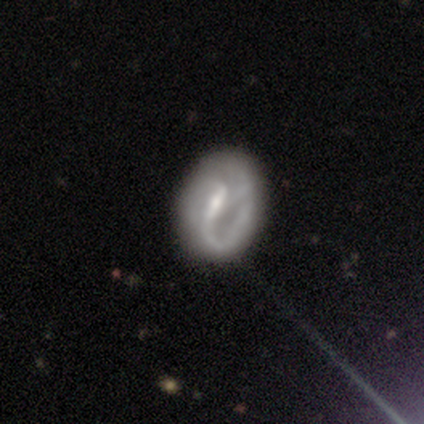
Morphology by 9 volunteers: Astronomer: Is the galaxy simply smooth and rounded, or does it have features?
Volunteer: featured or disk — 67%.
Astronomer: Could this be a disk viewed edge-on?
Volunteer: no — 83%.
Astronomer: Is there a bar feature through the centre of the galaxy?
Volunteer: strong — 80%.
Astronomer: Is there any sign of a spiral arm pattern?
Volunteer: yes — 100%.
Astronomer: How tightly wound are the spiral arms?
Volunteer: loose — 80%.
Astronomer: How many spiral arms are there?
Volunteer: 2 — 60%.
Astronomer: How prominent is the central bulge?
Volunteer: small — 60%.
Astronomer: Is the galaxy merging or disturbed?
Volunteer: none — 89%.